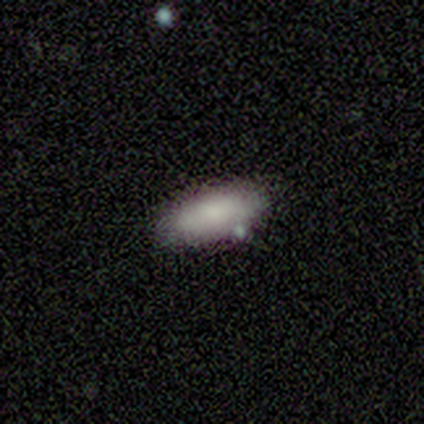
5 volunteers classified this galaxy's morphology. Smooth or featured: smooth — 80% (featured or disk — 20%)
How rounded: in between — 100%
Merging: none — 100%